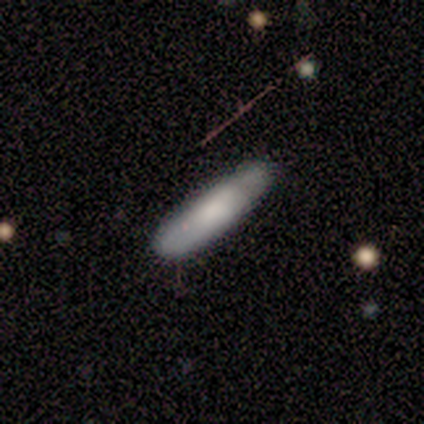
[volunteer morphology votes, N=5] Smooth or featured?
  - smooth: 80% *
  - featured or disk: 20%
  - star or artifact: 0%
How rounded?
  - cigar-shaped: 75% *
  - in between: 25%
  - round: 0%
Merging?
  - none: 60% *
  - minor disturbance: 40%
  - major disturbance: 0%
  - merger: 0%